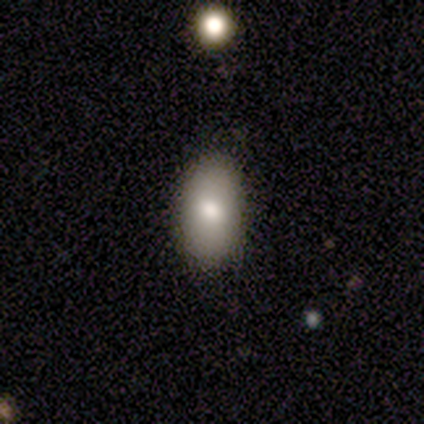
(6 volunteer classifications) Overall: smooth (83%). How rounded: in between (80%). Merging: minor disturbance (60%; none 40%).